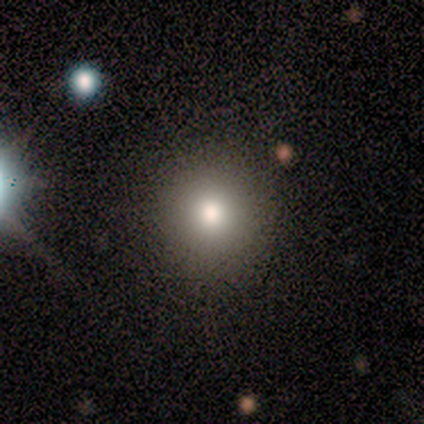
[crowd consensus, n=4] smooth_or_featured: smooth (p=0.50) [tied with: star or artifact p=0.50]
how_rounded: round (p=1.00)
merging: none (p=1.00)